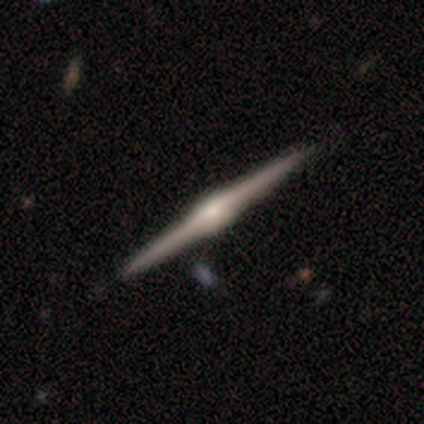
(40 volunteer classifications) Q: Smooth or featured?
A: featured or disk (100%)
Q: Edge-on disk?
A: yes (100%)
Q: Edge-on bulge?
A: rounded (70%); runner-up: boxy (30%)
Q: Merging?
A: none (68%); runner-up: minor disturbance (2%)